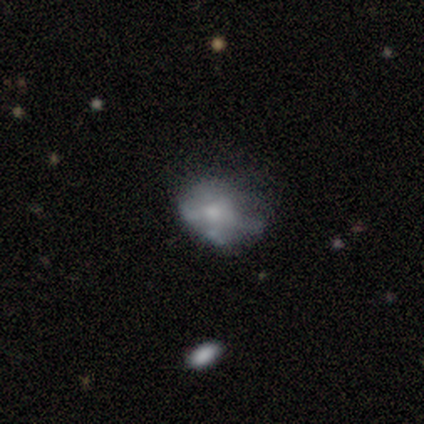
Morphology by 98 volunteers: featured or disk 53%, smooth 34%, star or artifact 13%. Down the decision tree: edge-on disk — no (100%); bar — no (90%); spiral arms — no (94%); bulge size — small (52%); merging — minor disturbance (36%).